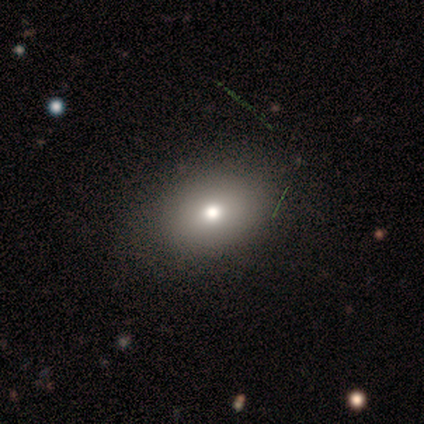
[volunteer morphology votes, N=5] type=smooth (40%, tied with star or artifact); roundness=round (50%, tied with in between); merging=none (100%).